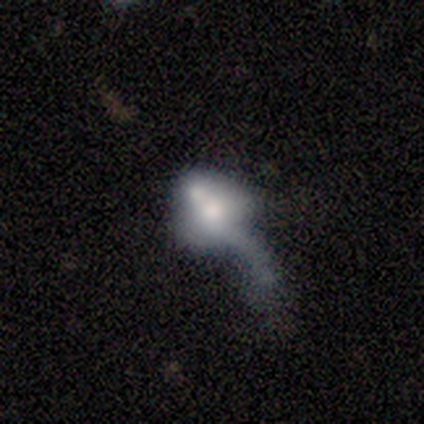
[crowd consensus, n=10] Smooth or featured? smooth (50%)
How rounded? in between (80%)
Merging? major disturbance (56%)